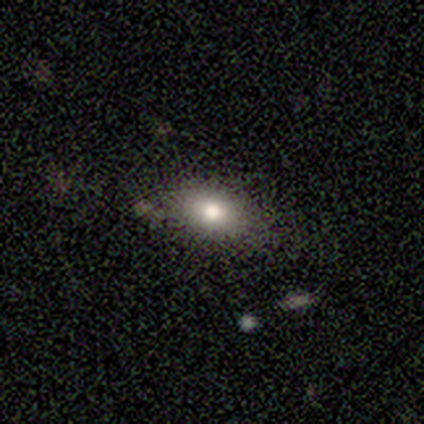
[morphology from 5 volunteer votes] Smooth or featured: smooth — 80% (star or artifact — 20%)
How rounded: in between — 75% (cigar-shaped — 25%)
Merging: none — 100%